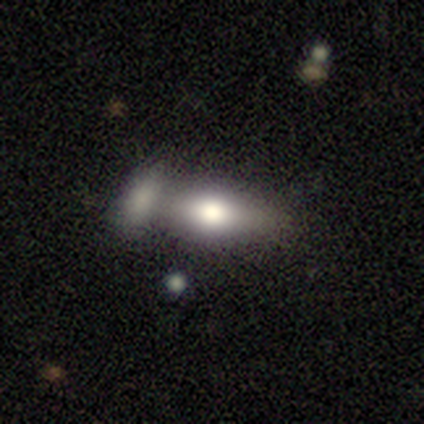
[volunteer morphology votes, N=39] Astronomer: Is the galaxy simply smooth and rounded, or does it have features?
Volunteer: smooth — 56% (runner-up: featured or disk, 36%).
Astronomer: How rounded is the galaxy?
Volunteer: in between — 82%.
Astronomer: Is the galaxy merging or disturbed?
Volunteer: merger — 56%.